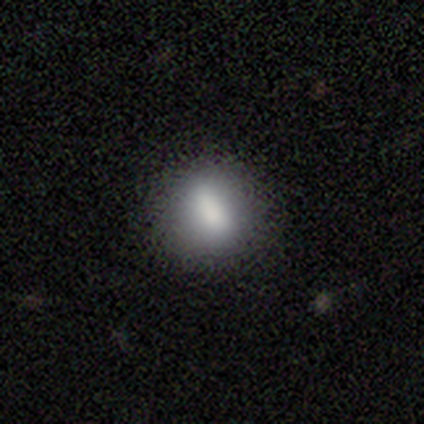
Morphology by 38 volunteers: Q: Smooth or featured?
A: smooth (82%); runner-up: featured or disk (11%)
Q: How rounded?
A: round (55%); runner-up: in between (42%)
Q: Merging?
A: none (80%); runner-up: minor disturbance (17%)